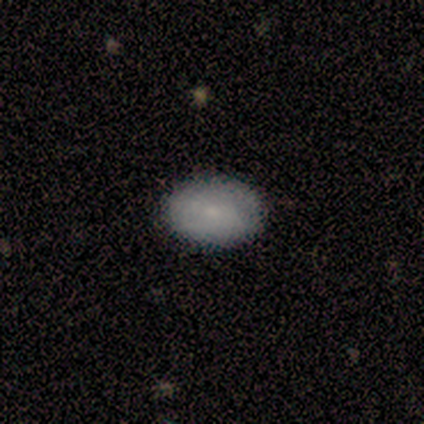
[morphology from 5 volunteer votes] smooth 60%, featured or disk 40%, star or artifact 0%. Down the decision tree: how rounded — in between (67%); merging — none (60%).